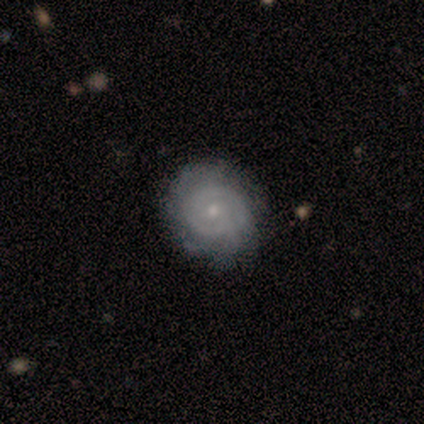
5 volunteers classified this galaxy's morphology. featured or disk 100%, smooth 0%, star or artifact 0%. Down the decision tree: edge-on disk — no (100%); bar — no (100%); spiral arms — yes (60%); spiral arm count — can't tell (67%); spiral winding — tight (100%); bulge size — small (100%); merging — none (60%).